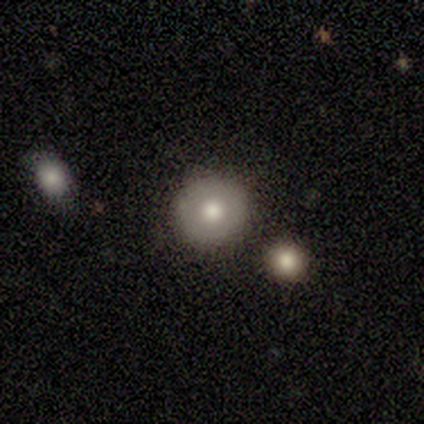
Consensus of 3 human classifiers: Q: Smooth or featured?
A: smooth (67%); runner-up: featured or disk (33%)
Q: How rounded?
A: round (100%)
Q: Merging?
A: none (100%)